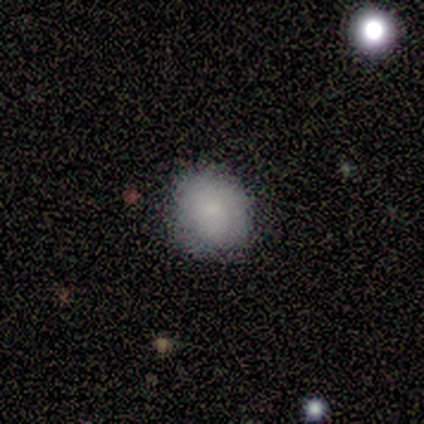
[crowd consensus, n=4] Smooth or featured?
  - smooth: 100% *
  - featured or disk: 0%
  - star or artifact: 0%
How rounded?
  - round: 100% *
  - in between: 0%
  - cigar-shaped: 0%
Merging?
  - none: 75% *
  - minor disturbance: 25%
  - major disturbance: 0%
  - merger: 0%